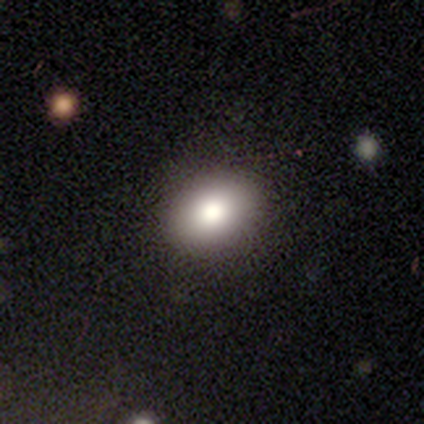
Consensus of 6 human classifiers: Smooth or featured? 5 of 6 (83%) said smooth. How rounded? 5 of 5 (100%) said in between. Merging? 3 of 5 (60%) said none.